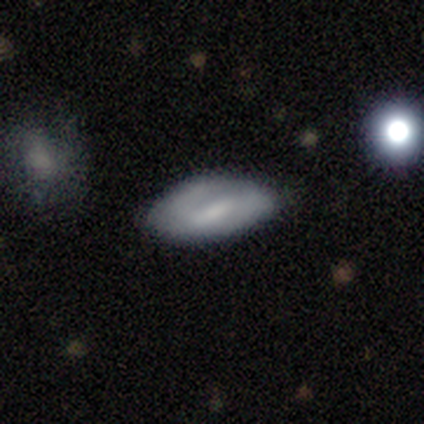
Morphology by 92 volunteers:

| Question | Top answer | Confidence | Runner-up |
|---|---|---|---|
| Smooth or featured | smooth | 55% | featured or disk (45%) |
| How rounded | in between | 88% | cigar-shaped (10%) |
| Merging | none | 65% | minor disturbance (33%) |